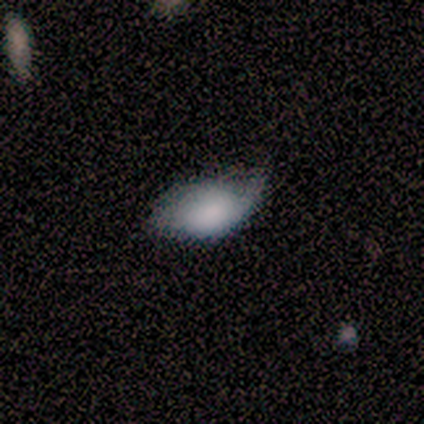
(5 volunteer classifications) Overall: featured or disk (80%). Edge-on disk: no (100%). Bar: no (75%). Spiral arms: yes (50%, tied with no). Spiral arm count: 1 (100%). Spiral winding: medium (50%, tied with loose). Bulge size: moderate (75%). Merging: none (40%, tied with minor disturbance).